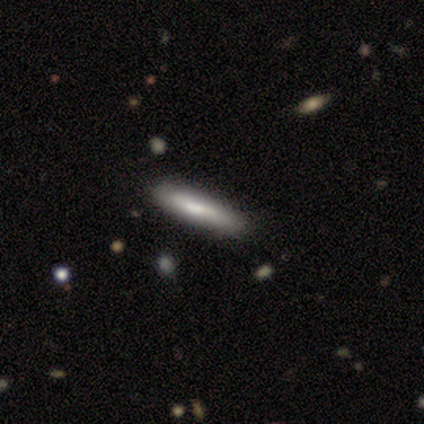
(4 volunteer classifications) A smooth galaxy with no disk features (50%, tied with featured or disk) that is cigar-shaped (100%). Merging: minor disturbance (75%).